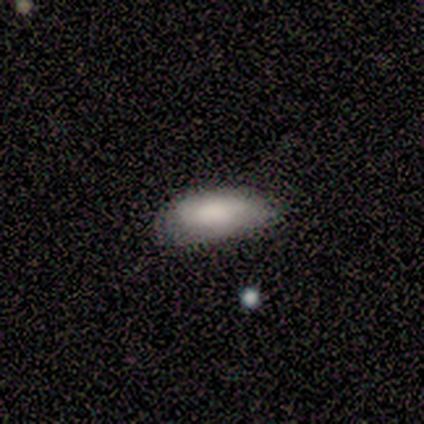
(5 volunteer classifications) This is clearly a smooth galaxy (100%). How rounded: clearly in between (100%). Merging: likely none (60%).